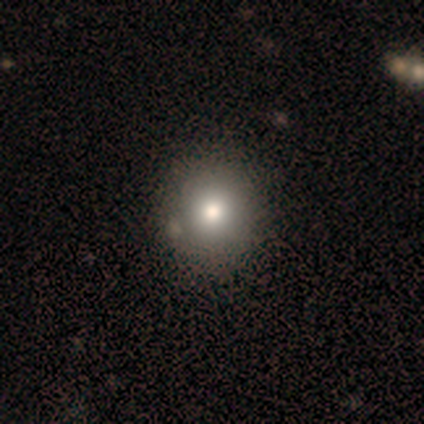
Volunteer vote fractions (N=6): A smooth galaxy with no disk features (50%) that is round (100%).

Vote fractions:
- Smooth or featured? smooth: 50% / featured or disk: 33% / star or artifact: 17%
- How rounded? round: 100% / in between: 0% / cigar-shaped: 0%
- Merging? minor disturbance: 60% / none: 40% / major disturbance: 0% / merger: 0%